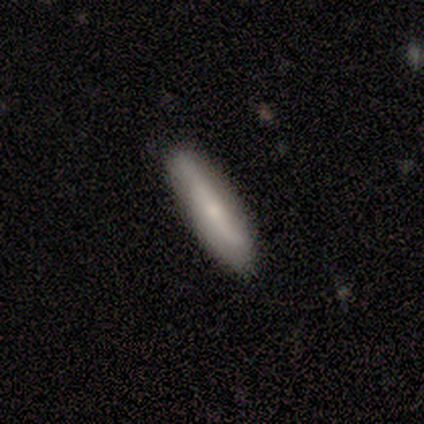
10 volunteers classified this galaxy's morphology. Smooth or featured: smooth — 70% (featured or disk — 30%)
How rounded: cigar-shaped — 86% (in between — 14%)
Merging: none — 90% (minor disturbance — 10%)